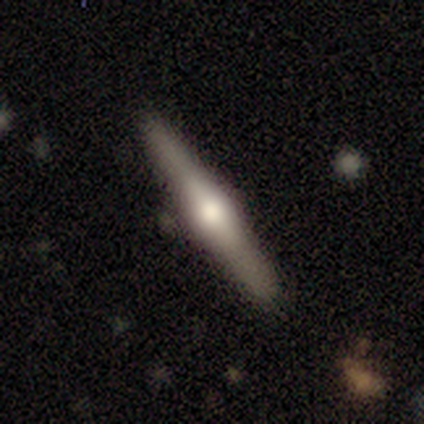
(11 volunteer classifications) Morphology: type=smooth (55%); roundness=cigar-shaped (83%); merging=none (91%).